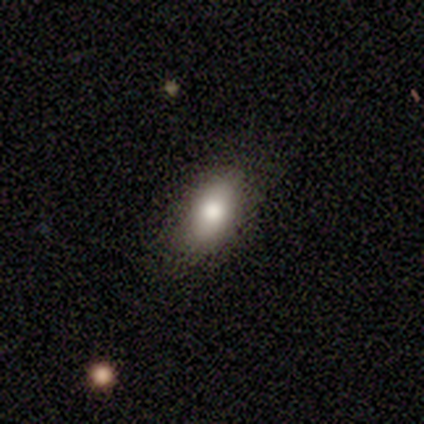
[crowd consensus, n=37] Smooth or featured? smooth (78%)
How rounded? in between (86%)
Merging? none (76%)